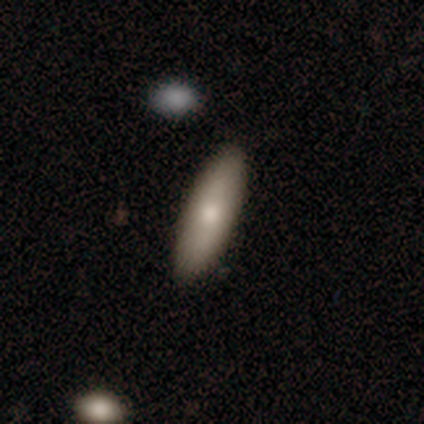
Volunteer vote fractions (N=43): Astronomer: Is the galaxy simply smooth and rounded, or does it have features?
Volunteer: smooth — 77%.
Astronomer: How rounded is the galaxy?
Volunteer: cigar-shaped — 70%.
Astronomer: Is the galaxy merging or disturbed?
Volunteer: none — 93%.